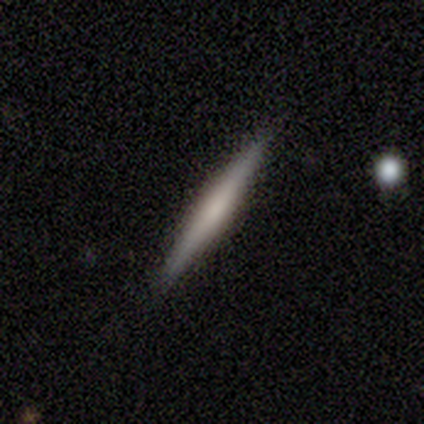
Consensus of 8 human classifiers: Smooth or featured? smooth (62%)
How rounded? cigar-shaped (100%)
Merging? none (100%)